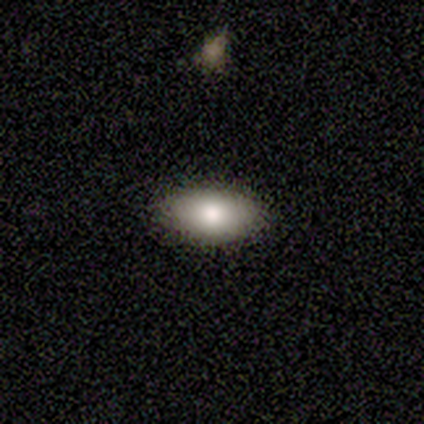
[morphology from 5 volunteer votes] smooth 100%, featured or disk 0%, star or artifact 0%. Down the decision tree: how rounded — in between (100%); merging — none (100%).